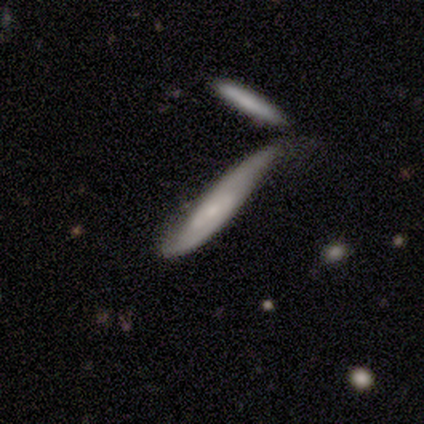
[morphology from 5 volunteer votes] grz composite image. It shows a featured or disk galaxy (60%) with a weak bar (100%), 2 (100%) tight (50%, tied with medium) spiral arms (100%) and a small central bulge (100%). Merging: none (80%).